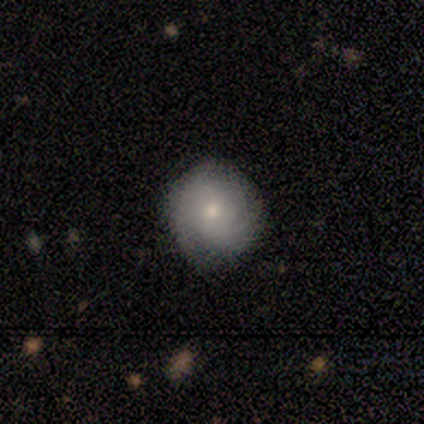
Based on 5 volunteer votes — smooth-or-featured: smooth: 40% (tied) | featured or disk: 40% (tied) | star or artifact: 20%
  how-rounded: round: 100% | in between: 0% | cigar-shaped: 0%
  merging: none: 100% | minor disturbance: 0% | major disturbance: 0% | merger: 0%